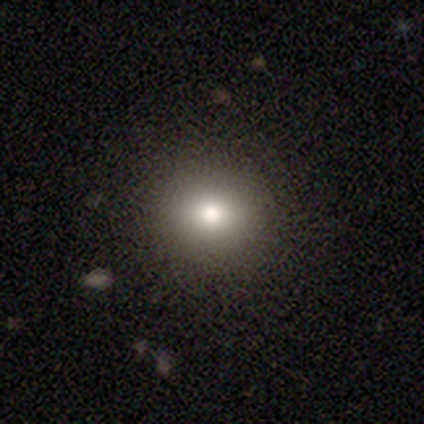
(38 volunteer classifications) Smooth or featured?
  - smooth: 71% *
  - featured or disk: 16%
  - star or artifact: 13%
How rounded?
  - round: 85% *
  - in between: 15%
  - cigar-shaped: 0%
Merging?
  - none: 94% *
  - minor disturbance: 3%
  - major disturbance: 3%
  - merger: 0%